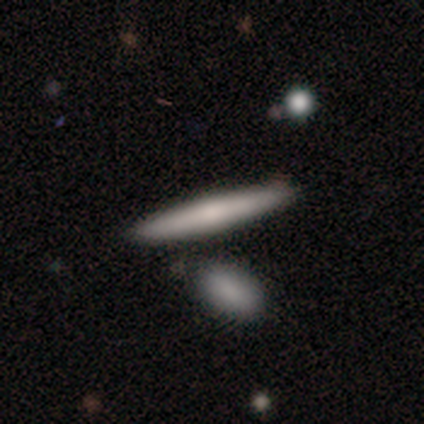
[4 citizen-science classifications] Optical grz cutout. It shows a smooth galaxy with no disk features (50%, tied with featured or disk) that is cigar-shaped (100%). Merging: none (100%).